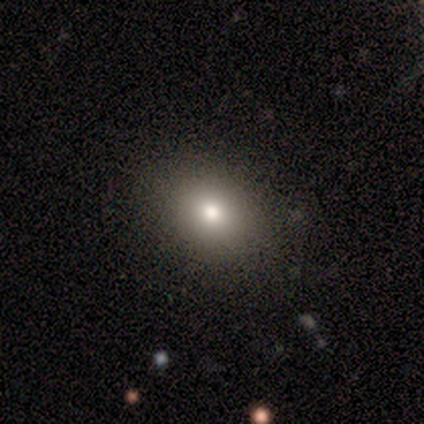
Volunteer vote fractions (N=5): Q: Smooth or featured?
A: smooth (60%); runner-up: featured or disk (40%)
Q: How rounded?
A: in between (100%)
Q: Merging?
A: none (100%)